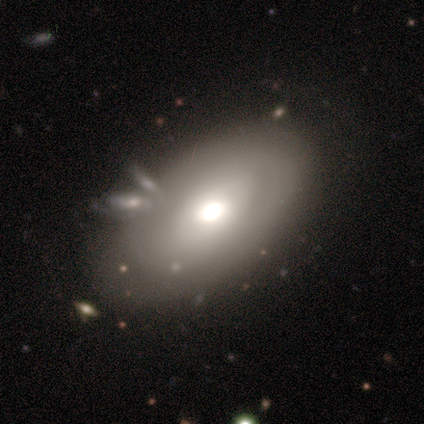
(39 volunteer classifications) Q: Smooth or featured?
A: smooth (56%); runner-up: featured or disk (44%)
Q: How rounded?
A: in between (95%); runner-up: round (5%)
Q: Merging?
A: none (54%); runner-up: minor disturbance (26%)